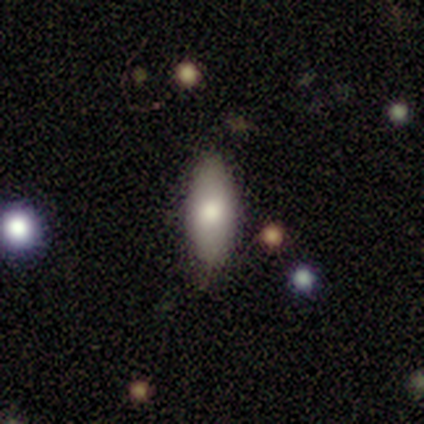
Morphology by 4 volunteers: Smooth or featured?
  - smooth: 100% *
  - featured or disk: 0%
  - star or artifact: 0%
How rounded?
  - in between: 50% *
  - round: 25%
  - cigar-shaped: 25%
Merging?
  - none: 75% *
  - minor disturbance: 25%
  - major disturbance: 0%
  - merger: 0%